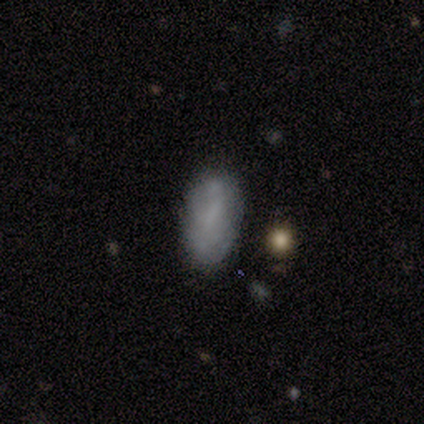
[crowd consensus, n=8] Q: Smooth or featured?
A: smooth (75%); runner-up: featured or disk (25%)
Q: How rounded?
A: in between (100%)
Q: Merging?
A: none (100%)